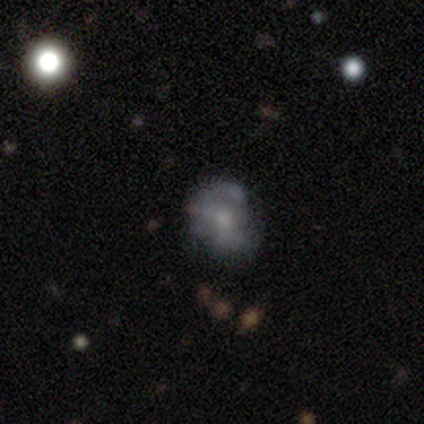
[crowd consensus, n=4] Q: Smooth or featured?
A: smooth (75%); runner-up: featured or disk (25%)
Q: How rounded?
A: in between (67%); runner-up: round (33%)
Q: Merging?
A: minor disturbance (75%); runner-up: none (25%)